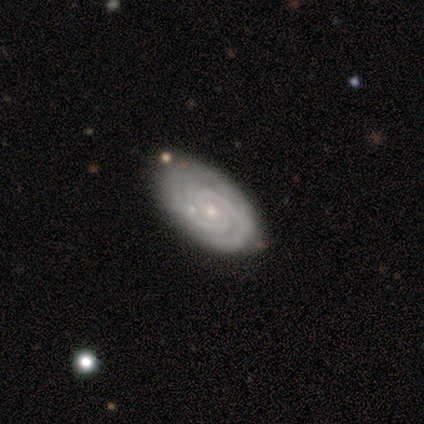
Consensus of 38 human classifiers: featured or disk 89%, smooth 11%, star or artifact 0%. Down the decision tree: edge-on disk — no (94%); bar — no (72%); spiral arms — yes (94%); spiral arm count — 2 (47%); spiral winding — tight (80%); bulge size — small (72%); merging — none (76%).